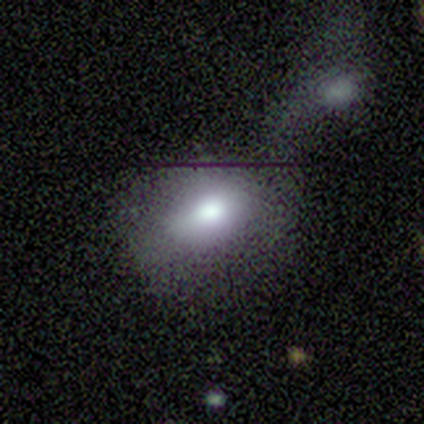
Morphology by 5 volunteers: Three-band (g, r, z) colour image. It shows a smooth galaxy with no disk features (100%) that is in between round and cigar-shaped (60%). Merging: none (40%, tied with merger).